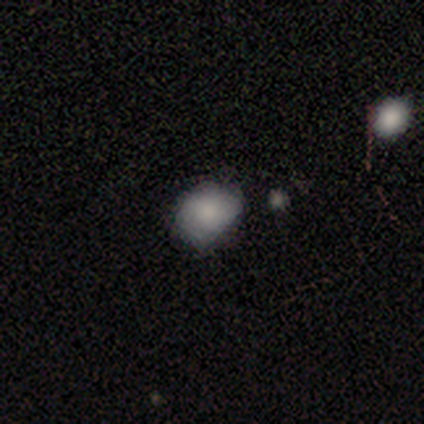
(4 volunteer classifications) A smooth galaxy with no disk features (75%) that is in between round and cigar-shaped (67%).

Vote fractions:
- Smooth or featured? smooth: 75% / featured or disk: 25% / star or artifact: 0%
- How rounded? in between: 67% / round: 33% / cigar-shaped: 0%
- Merging? none: 75% / minor disturbance: 25% / major disturbance: 0% / merger: 0%